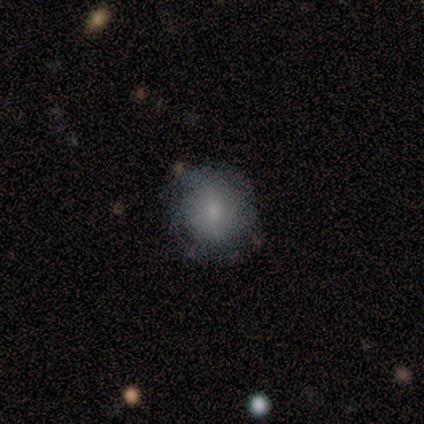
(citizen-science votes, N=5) Smooth or featured?
  - smooth: 80% *
  - featured or disk: 20%
  - star or artifact: 0%
How rounded?
  - round: 100% *
  - in between: 0%
  - cigar-shaped: 0%
Merging?
  - none: 80% *
  - minor disturbance: 20%
  - major disturbance: 0%
  - merger: 0%